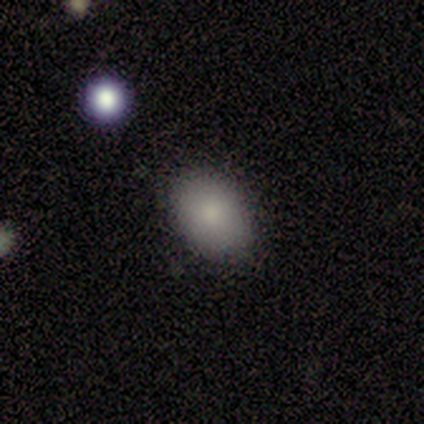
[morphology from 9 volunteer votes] This appears to be a smooth galaxy with no disk features (89%) that is in between round and cigar-shaped (88%). Merging: none (100%).